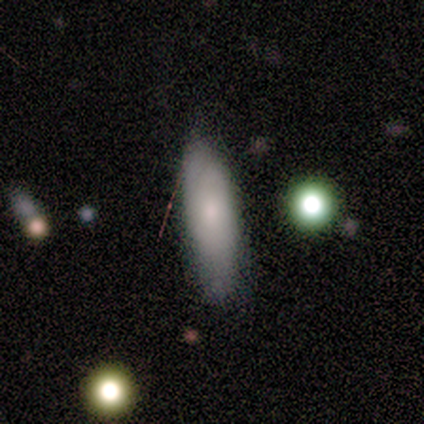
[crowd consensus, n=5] Smooth or featured? smooth (80%)
How rounded? in between (75%)
Merging? none (60%)